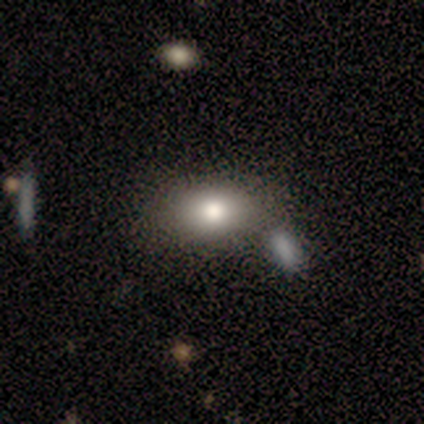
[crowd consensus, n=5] smooth-or-featured: smooth: 100% | featured or disk: 0% | star or artifact: 0%
  how-rounded: in between: 100% | round: 0% | cigar-shaped: 0%
  merging: none: 80% | minor disturbance: 20% | major disturbance: 0% | merger: 0%